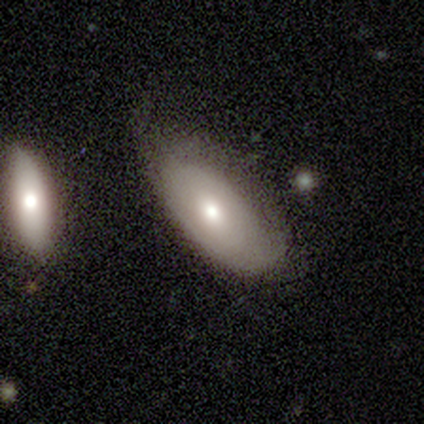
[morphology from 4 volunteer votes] Volunteers were most divided on "smooth or featured": smooth: 50%, featured or disk: 25%, star or artifact: 25%. More confident: how rounded — in between (100%); merging — minor disturbance (67%).